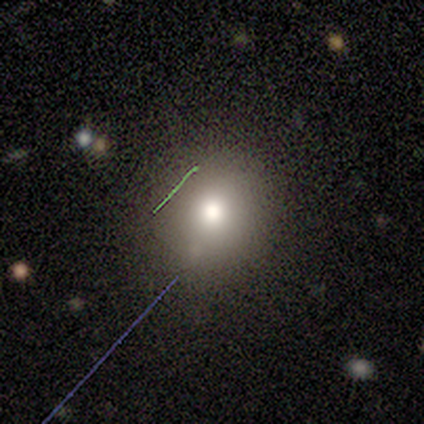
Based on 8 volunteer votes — smooth_or_featured: smooth (p=0.88) [alt: star or artifact p=0.12]
how_rounded: round (p=0.86) [alt: in between p=0.14]
merging: none (p=1.00)